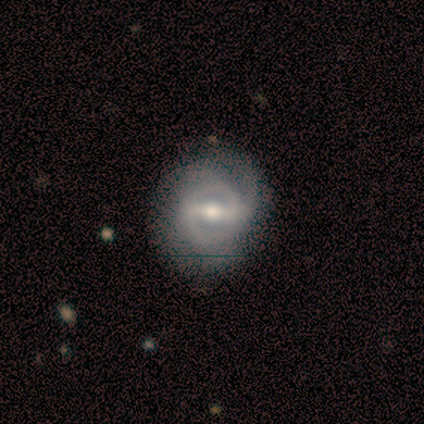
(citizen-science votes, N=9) Smooth or featured? 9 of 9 (100%) said featured or disk. Edge-on disk? 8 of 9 (89%) said no. Bar? 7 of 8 (88%) said strong. Spiral arms? 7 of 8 (88%) said yes. Spiral winding? 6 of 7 (86%) said tight. Spiral arm count? 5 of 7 (71%) said 2. Bulge size? 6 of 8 (75%) said moderate. Merging? 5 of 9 (56%) said minor disturbance.